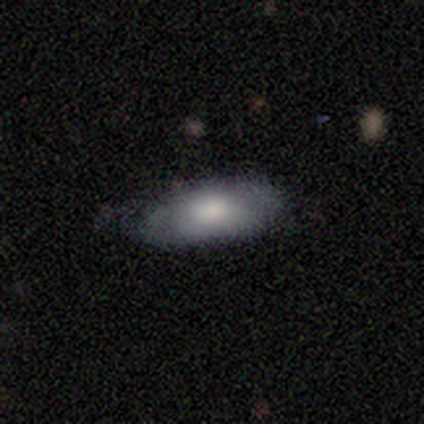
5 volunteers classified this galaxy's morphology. Overall: smooth (80%). How rounded: in between (75%). Merging: none (100%).